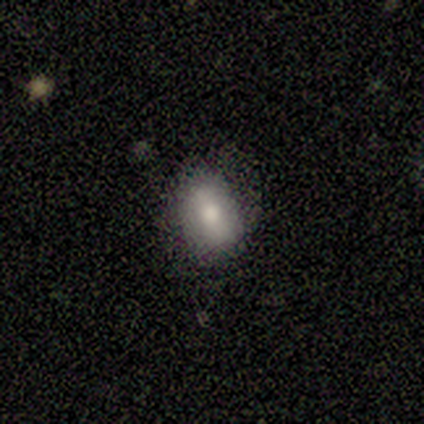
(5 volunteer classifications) smooth-or-featured: smooth: 60% | featured or disk: 40% | star or artifact: 0%
  how-rounded: in between: 67% | round: 33% | cigar-shaped: 0%
  merging: none: 60% | minor disturbance: 40% | major disturbance: 0% | merger: 0%